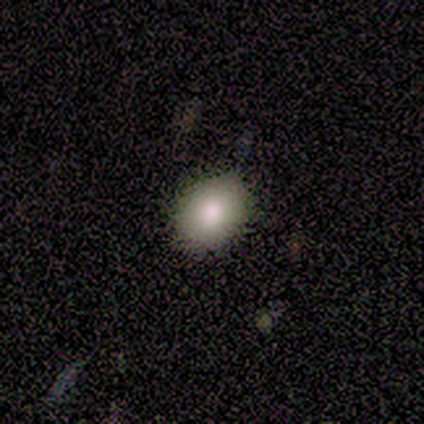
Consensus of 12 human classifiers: Q: Smooth or featured?
A: smooth (100%)
Q: How rounded?
A: round (58%); runner-up: in between (42%)
Q: Merging?
A: none (83%); runner-up: minor disturbance (17%)